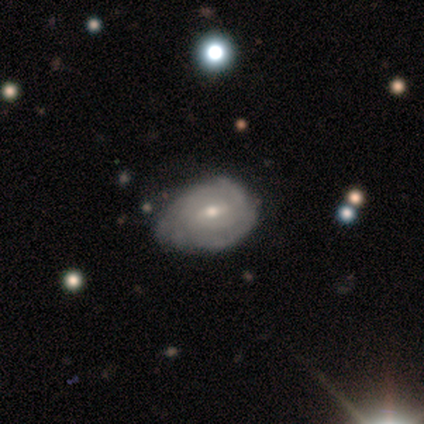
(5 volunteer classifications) Overall: featured or disk (60%; smooth 40%). Edge-on disk: no (100%). Bar: weak (100%). Spiral arms: no (67%; yes 33%). Bulge size: moderate (67%; small 33%). Merging: none (40%, tied with minor disturbance).